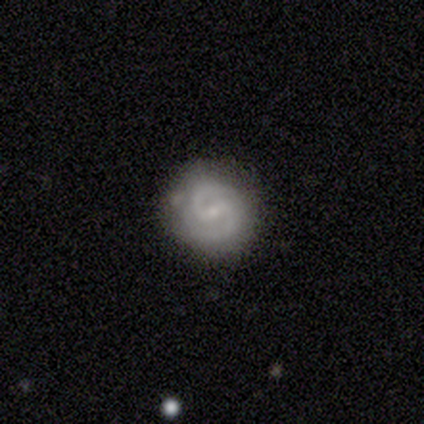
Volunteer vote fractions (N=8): A featured or disk galaxy (88%) with a weak bar (71%), 2 (86%) medium (57%) spiral arms (100%) and a small central bulge (86%). Merging: none (100%).